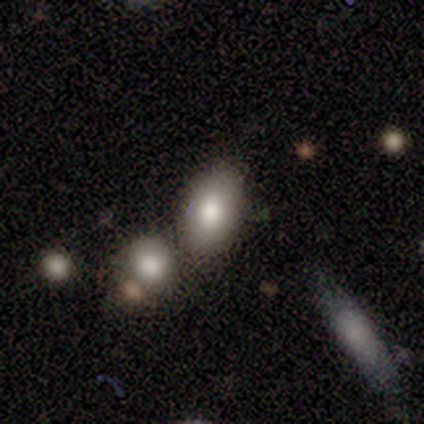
This appears to be a smooth galaxy with no disk features (88%) that is in between round and cigar-shaped (57%). Merging: none (88%).